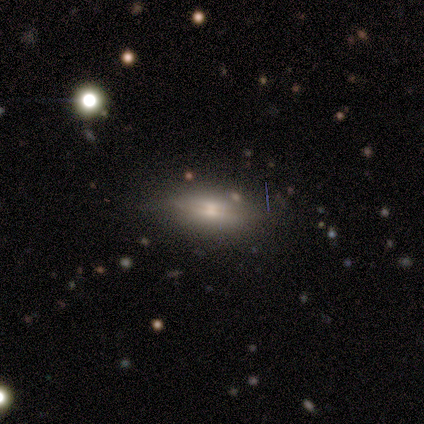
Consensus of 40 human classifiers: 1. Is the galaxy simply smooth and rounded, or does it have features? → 65% featured or disk, 25% smooth, 10% star or artifact.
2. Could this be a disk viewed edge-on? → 62% yes, 38% no.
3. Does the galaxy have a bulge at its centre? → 75% rounded, 19% boxy, 6% none.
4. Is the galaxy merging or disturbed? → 72% none, 19% minor disturbance, 6% major disturbance, 3% merger.